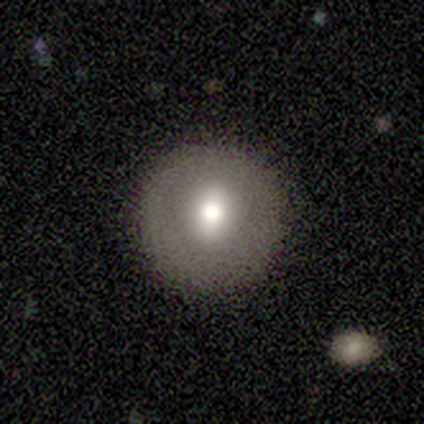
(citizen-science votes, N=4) Smooth or featured? smooth (75%)
How rounded? round (67%)
Merging? none (67%)